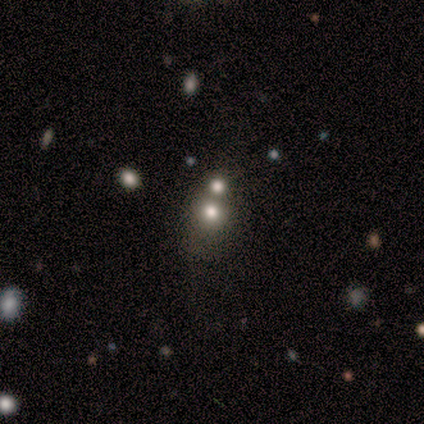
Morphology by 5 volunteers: A star or artifact, not a galaxy (60%).